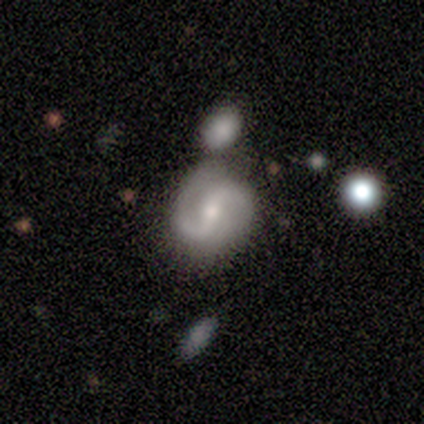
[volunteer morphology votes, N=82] Smooth or featured?
  - featured or disk: 87% *
  - smooth: 9%
  - star or artifact: 5%
Edge-on disk?
  - no: 100% *
  - yes: 0%
Bar?
  - weak: 45% *
  - strong: 41%
  - no: 14%
Spiral arms?
  - yes: 97% *
  - no: 3%
Spiral winding?
  - medium: 45% *
  - loose: 35%
  - tight: 20%
Spiral arm count?
  - 2: 97% *
  - 1: 1%
  - 4: 1%
  - 3: 0%
  - more than 4: 0%
  - can't tell: 0%
Bulge size?
  - moderate: 52% *
  - small: 41%
  - large: 6%
  - none: 1%
  - dominant: 0%
Merging?
  - none: 53% *
  - merger: 23%
  - minor disturbance: 17%
  - major disturbance: 8%